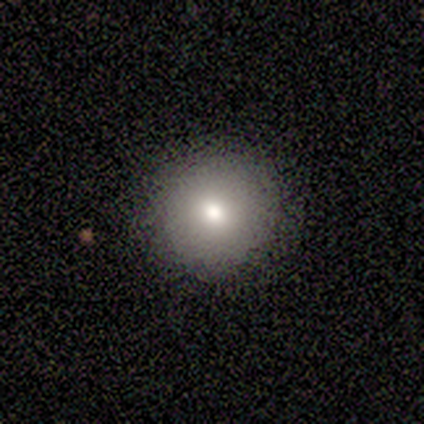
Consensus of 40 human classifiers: Q: Smooth or featured?
A: smooth (78%); runner-up: featured or disk (12%)
Q: How rounded?
A: round (100%)
Q: Merging?
A: none (92%); runner-up: minor disturbance (8%)